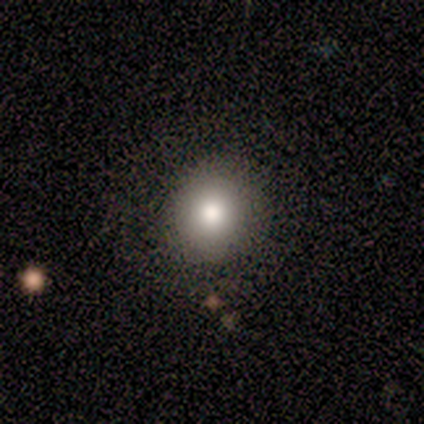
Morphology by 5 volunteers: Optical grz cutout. It shows a smooth galaxy with no disk features (80%) that is round (100%). Merging: none (100%).